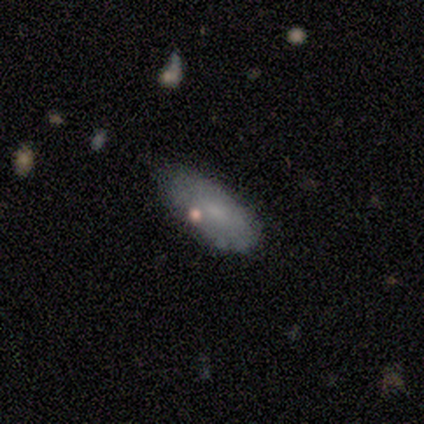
Smooth or featured?
  - smooth: 80% *
  - featured or disk: 20%
  - star or artifact: 0%
How rounded?
  - in between: 100% *
  - round: 0%
  - cigar-shaped: 0%
Merging?
  - none: 80% *
  - minor disturbance: 20%
  - major disturbance: 0%
  - merger: 0%